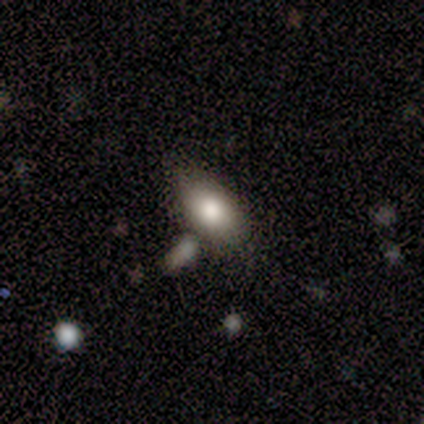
smooth-or-featured: smooth: 88% | star or artifact: 12% | featured or disk: 0%
  how-rounded: in between: 100% | round: 0% | cigar-shaped: 0%
  merging: none: 43% | minor disturbance: 29% | merger: 29% | major disturbance: 0%